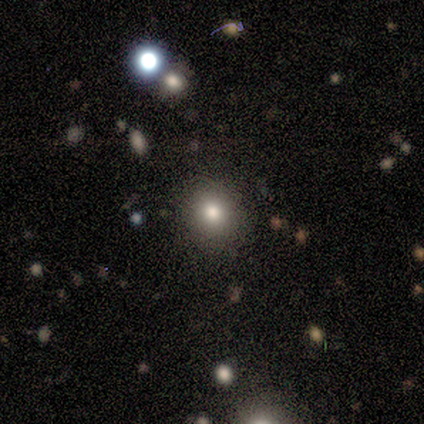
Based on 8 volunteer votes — smooth-or-featured: smooth: 75% | featured or disk: 12% | star or artifact: 12%
  how-rounded: round: 83% | in between: 17% | cigar-shaped: 0%
  merging: none: 71% | minor disturbance: 14% | merger: 14% | major disturbance: 0%